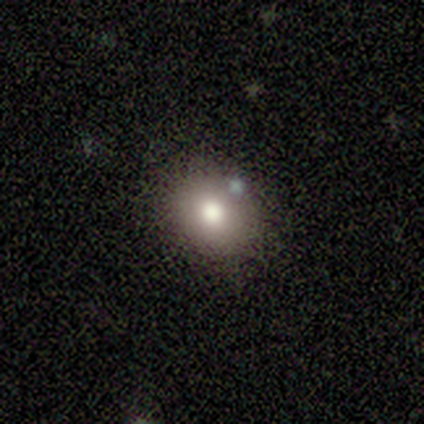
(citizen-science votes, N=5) smooth 80%, featured or disk 20%, star or artifact 0%. Down the decision tree: how rounded — round (75%); merging — none (60%).